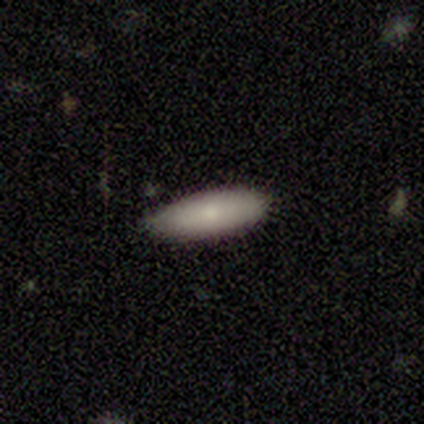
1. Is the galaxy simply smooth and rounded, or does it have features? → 89% smooth, 11% featured or disk, 0% star or artifact.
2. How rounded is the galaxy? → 62% cigar-shaped, 38% in between, 0% round.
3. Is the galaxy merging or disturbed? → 56% none, 44% minor disturbance, 0% major disturbance, 0% merger.